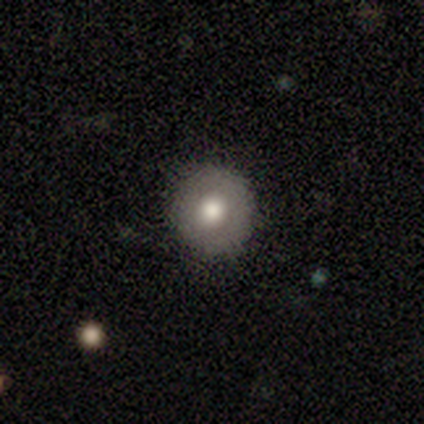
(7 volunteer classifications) A smooth galaxy with no disk features (100%) that is round (100%).

Vote fractions:
- Smooth or featured? smooth: 100% / featured or disk: 0% / star or artifact: 0%
- How rounded? round: 100% / in between: 0% / cigar-shaped: 0%
- Merging? none: 100% / minor disturbance: 0% / major disturbance: 0% / merger: 0%